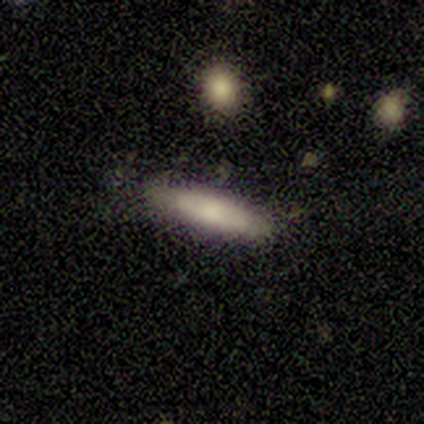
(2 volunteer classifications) Volunteers were most divided on "smooth or featured" (2-way tie): smooth: 50%, featured or disk: 50%, star or artifact: 0%; "merging" (2-way tie): none: 50%, minor disturbance: 50%, major disturbance: 0%, merger: 0%. More confident: how rounded — cigar-shaped (100%).